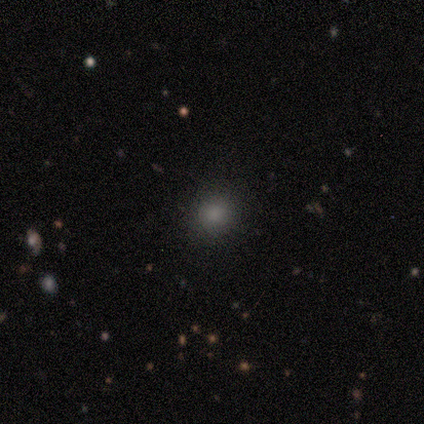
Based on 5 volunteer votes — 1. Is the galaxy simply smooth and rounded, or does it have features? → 80% smooth, 20% star or artifact, 0% featured or disk.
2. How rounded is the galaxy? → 100% round, 0% in between, 0% cigar-shaped.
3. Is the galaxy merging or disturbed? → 75% none, 25% minor disturbance, 0% major disturbance, 0% merger.